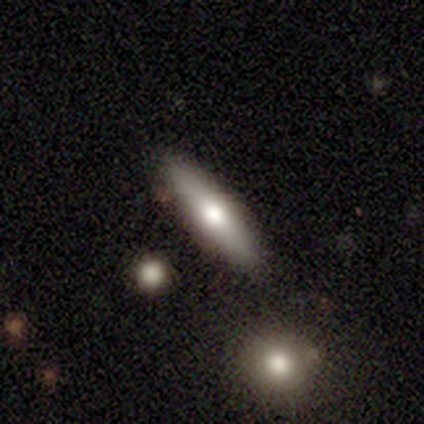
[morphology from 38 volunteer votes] This is possibly a smooth galaxy (50%). How rounded: likely cigar-shaped (74%). Merging: clearly none (82%).